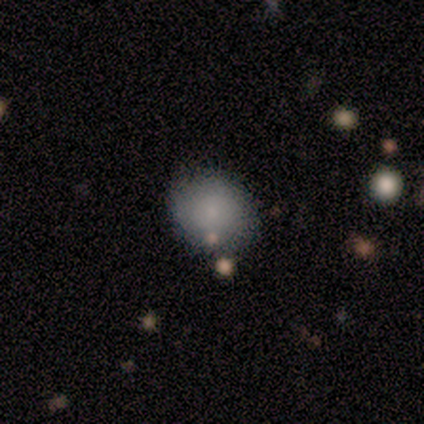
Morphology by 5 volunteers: Volunteers were most divided on "how rounded": round: 75%, in between: 25%, cigar-shaped: 0%. More confident: smooth or featured — smooth (80%); merging — none (80%).